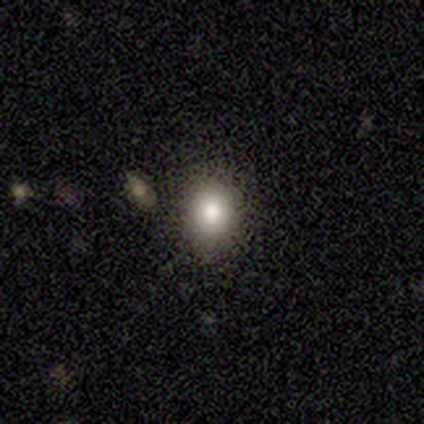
Smooth or featured: smooth — 80% (star or artifact — 20%)
How rounded: in between — 75% (round — 25%)
Merging: none — 75% (minor disturbance — 25%)